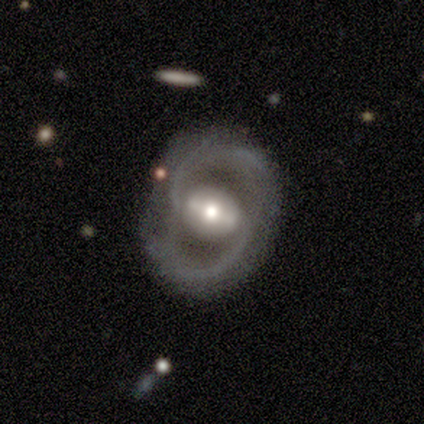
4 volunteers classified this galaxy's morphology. A featured or disk galaxy (100%) with a strong bar (100%), 2 (100%) loose (75%) spiral arms (100%) and a moderate central bulge (75%). Merging: none (75%).